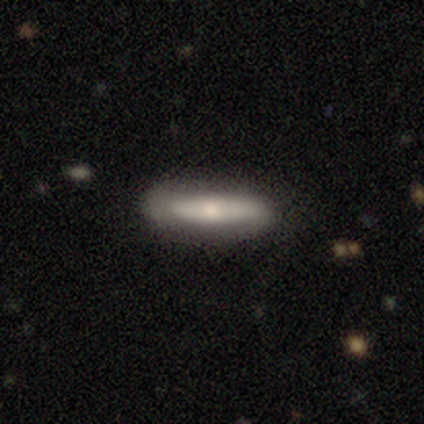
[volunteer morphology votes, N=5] Smooth or featured: smooth — 40% (tied with featured or disk — 40%)
How rounded: in between — 50% (tied with cigar-shaped — 50%)
Merging: none — 100%